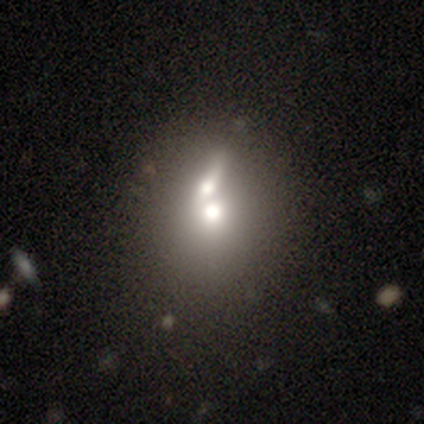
This appears to be a smooth galaxy with no disk features (60%) that is round (81%). Merging: merger (64%).